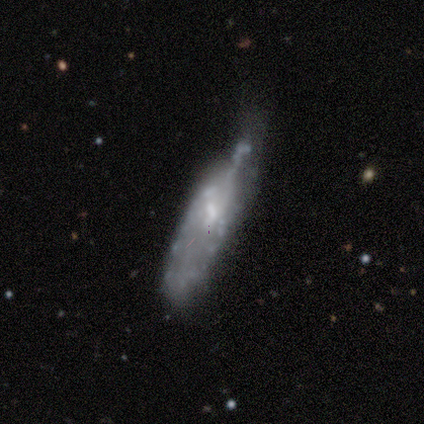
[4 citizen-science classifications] smooth_or_featured: featured or disk (p=0.75) [alt: star or artifact p=0.25]
disk_edge_on: no (p=1.00)
bar: no (p=1.00)
has_spiral_arms: no (p=0.67) [alt: yes p=0.33]
bulge_size: moderate (p=0.33) [tied with: small p=0.33, none p=0.33]
merging: minor disturbance (p=0.33) [tied with: major disturbance p=0.33, merger p=0.33]